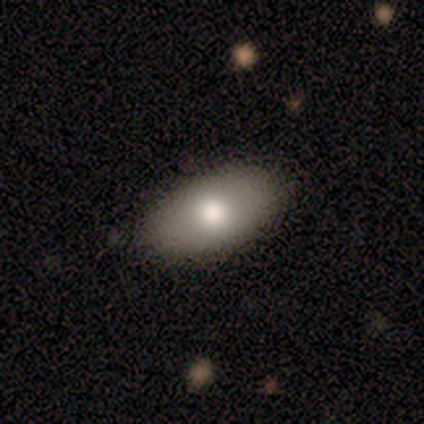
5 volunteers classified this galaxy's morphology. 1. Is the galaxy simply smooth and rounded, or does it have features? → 80% smooth, 20% featured or disk, 0% star or artifact.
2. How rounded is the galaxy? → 100% in between, 0% round, 0% cigar-shaped.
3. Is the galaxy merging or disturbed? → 100% none, 0% minor disturbance, 0% major disturbance, 0% merger.